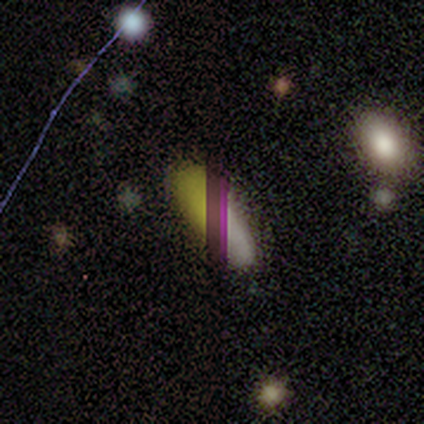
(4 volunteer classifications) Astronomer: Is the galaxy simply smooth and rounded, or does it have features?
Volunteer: smooth — 50%, tied with star or artifact at 50%.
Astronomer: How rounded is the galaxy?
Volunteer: in between — 100%.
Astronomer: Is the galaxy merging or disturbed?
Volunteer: none — 50%, tied with minor disturbance at 50%.